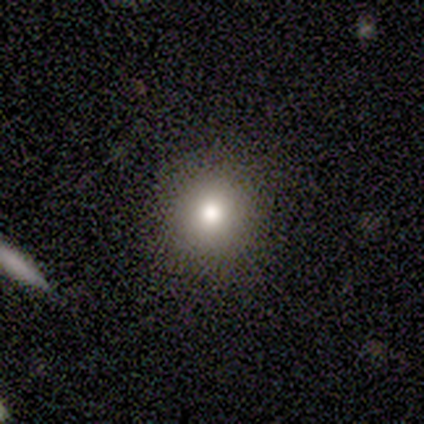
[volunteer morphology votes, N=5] Smooth or featured? smooth (80%)
How rounded? round (100%)
Merging? none (100%)